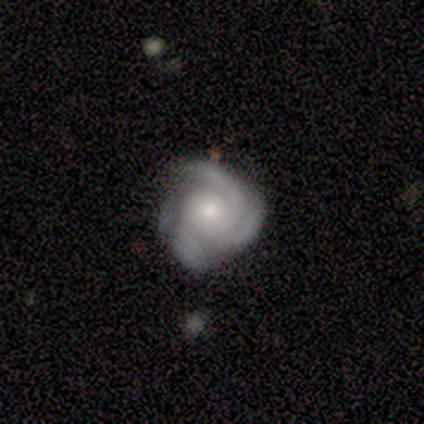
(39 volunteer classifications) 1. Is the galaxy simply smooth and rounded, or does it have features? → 85% featured or disk, 10% star or artifact, 5% smooth.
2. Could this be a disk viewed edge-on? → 100% no, 0% yes.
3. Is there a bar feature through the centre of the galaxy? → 73% no, 27% weak, 0% strong.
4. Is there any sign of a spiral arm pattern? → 97% yes, 3% no.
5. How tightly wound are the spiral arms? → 44% tight, 41% medium, 16% loose.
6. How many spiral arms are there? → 72% 3, 19% 4, 6% can't tell, 3% 2, 0% 1, 0% more than 4.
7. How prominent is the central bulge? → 48% small, 45% moderate, 3% large, 3% none, 0% dominant.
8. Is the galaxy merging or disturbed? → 66% none, 29% minor disturbance, 6% major disturbance, 0% merger.